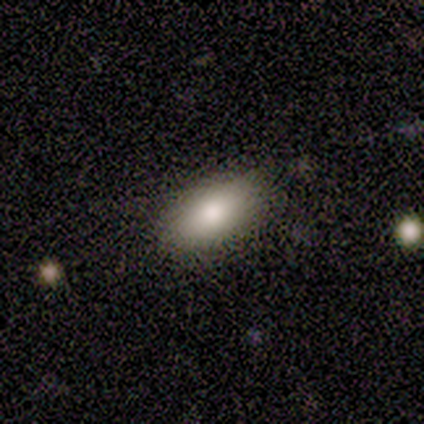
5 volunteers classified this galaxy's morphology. This is clearly a smooth galaxy (100%). How rounded: clearly in between (80%). Merging: likely none (60%).